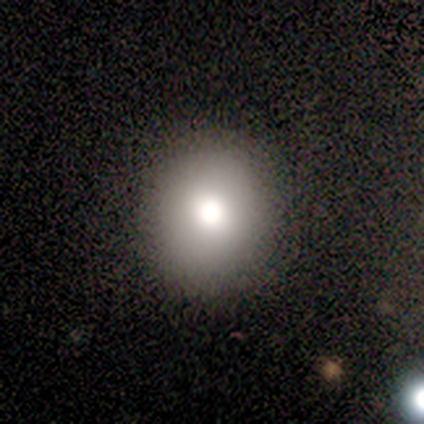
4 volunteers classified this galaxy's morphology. smooth_or_featured: smooth (p=0.50) [tied with: featured or disk p=0.50]
how_rounded: round (p=1.00)
merging: none (p=1.00)